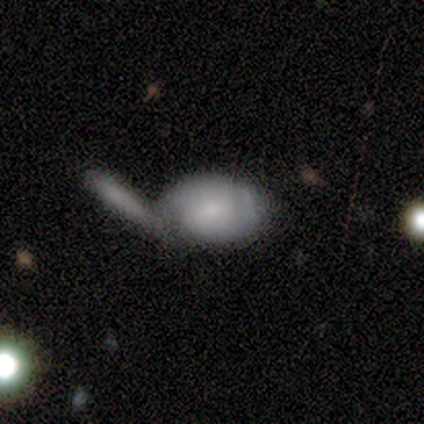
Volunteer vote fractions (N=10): smooth-or-featured: featured or disk: 50% | smooth: 40% | star or artifact: 10%
  disk-edge-on: no: 100% | yes: 0%
    bar: weak: 40% (tied) | no: 40% (tied) | strong: 20%
    has-spiral-arms: yes: 60% | no: 40%
      spiral-winding: tight: 67% | medium: 33% | loose: 0%
      spiral-arm-count: 2: 67% | 1: 33% | 3: 0% | 4: 0% | more than 4: 0% | can't tell: 0%
    bulge-size: moderate: 60% | small: 40% | dominant: 0% | large: 0% | none: 0%
  merging: merger: 44% | none: 33% | minor disturbance: 11% | major disturbance: 11%